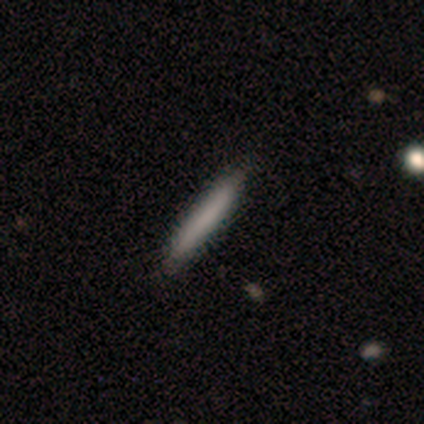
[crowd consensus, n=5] Smooth or featured: smooth — 100%
How rounded: cigar-shaped — 100%
Merging: none — 100%